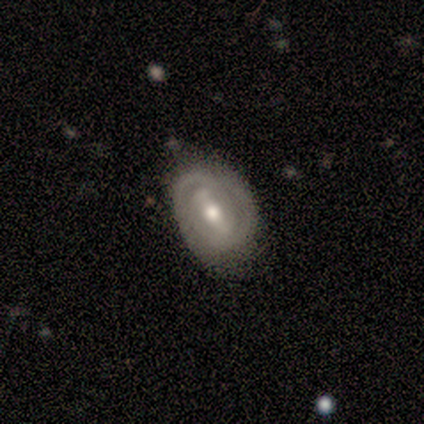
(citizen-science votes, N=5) Q: Smooth or featured?
A: featured or disk (80%); runner-up: smooth (20%)
Q: Edge-on disk?
A: no (100%)
Q: Bar?
A: strong (50%); runner-up: weak (25%)
Q: Spiral arms?
A: no (75%); runner-up: yes (25%)
Q: Bulge size?
A: moderate (75%); runner-up: small (25%)
Q: Merging?
A: none (80%); runner-up: minor disturbance (20%)